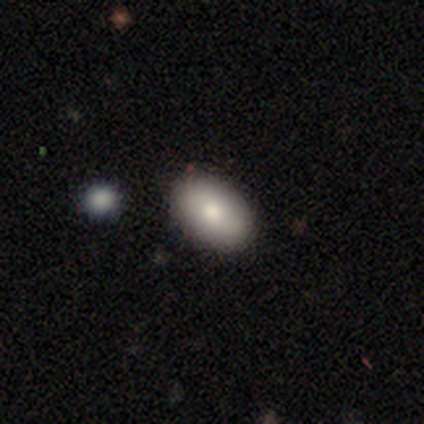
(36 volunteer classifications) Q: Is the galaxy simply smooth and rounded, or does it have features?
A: smooth — 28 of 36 (78%).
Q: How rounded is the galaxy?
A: in between — 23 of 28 (82%).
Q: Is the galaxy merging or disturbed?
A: none — 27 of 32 (84%).